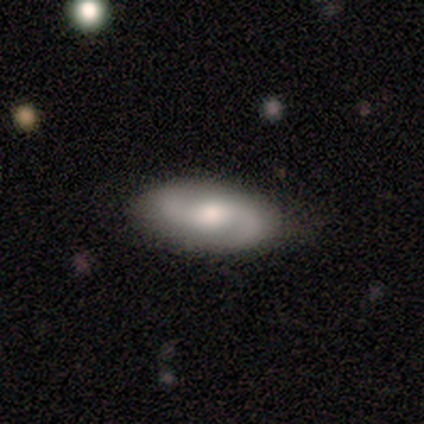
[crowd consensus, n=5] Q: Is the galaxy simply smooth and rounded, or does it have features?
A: featured or disk — 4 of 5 (80%).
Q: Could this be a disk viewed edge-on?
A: no — 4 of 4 (100%).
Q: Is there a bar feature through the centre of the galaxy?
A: no — 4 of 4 (100%).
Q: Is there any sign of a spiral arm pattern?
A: yes — 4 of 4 (100%).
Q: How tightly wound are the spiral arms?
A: loose — 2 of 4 (50%).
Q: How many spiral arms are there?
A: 2 — 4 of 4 (100%).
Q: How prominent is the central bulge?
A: moderate — 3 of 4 (75%).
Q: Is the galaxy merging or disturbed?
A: none — 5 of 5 (100%).